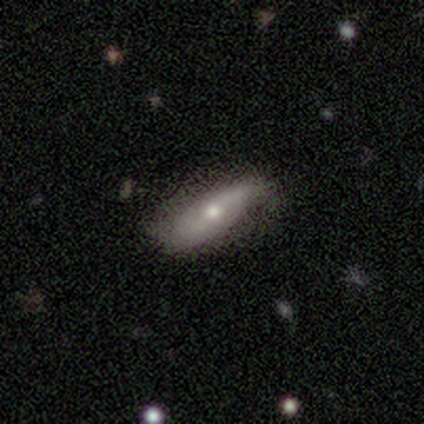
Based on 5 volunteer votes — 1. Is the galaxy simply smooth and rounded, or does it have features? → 60% featured or disk, 40% smooth, 0% star or artifact.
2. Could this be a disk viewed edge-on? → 100% no, 0% yes.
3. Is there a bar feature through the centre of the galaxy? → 67% weak, 33% no, 0% strong.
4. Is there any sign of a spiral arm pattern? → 100% yes, 0% no.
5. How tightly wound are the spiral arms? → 67% loose, 33% medium, 0% tight.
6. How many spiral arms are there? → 67% 2, 33% can't tell, 0% 1, 0% 3, 0% 4, 0% more than 4.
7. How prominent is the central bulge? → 67% small, 33% large, 0% dominant, 0% moderate, 0% none.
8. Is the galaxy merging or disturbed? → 40% none (tied), 40% major disturbance (tied), 20% minor disturbance, 0% merger.